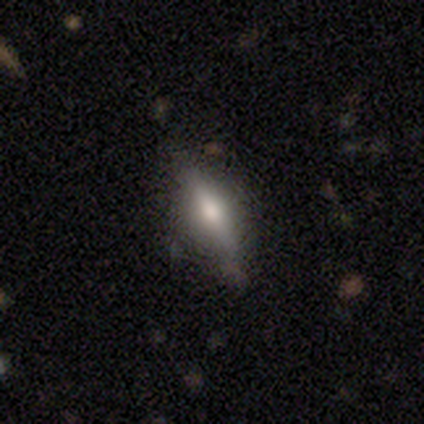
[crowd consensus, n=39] A smooth galaxy with no disk features (49%) that is in between round and cigar-shaped (63%). Merging: none (78%).